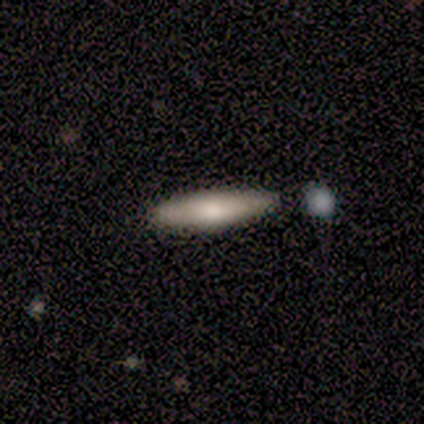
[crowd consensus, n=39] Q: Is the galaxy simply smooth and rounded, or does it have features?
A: smooth — 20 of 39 (51%).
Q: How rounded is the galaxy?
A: cigar-shaped — 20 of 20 (100%).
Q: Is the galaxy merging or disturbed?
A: none — 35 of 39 (90%).